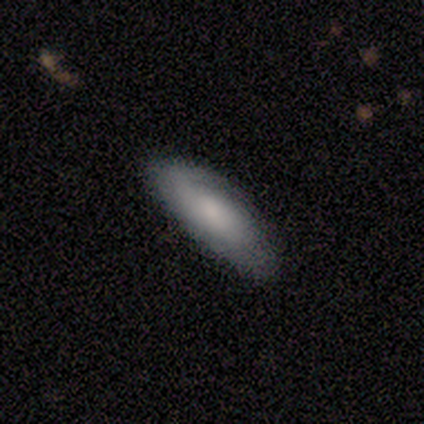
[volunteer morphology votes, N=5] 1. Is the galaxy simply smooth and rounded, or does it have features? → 40% smooth (tied), 40% featured or disk (tied), 20% star or artifact.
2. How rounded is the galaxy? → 100% in between, 0% round, 0% cigar-shaped.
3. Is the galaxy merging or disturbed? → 100% none, 0% minor disturbance, 0% major disturbance, 0% merger.